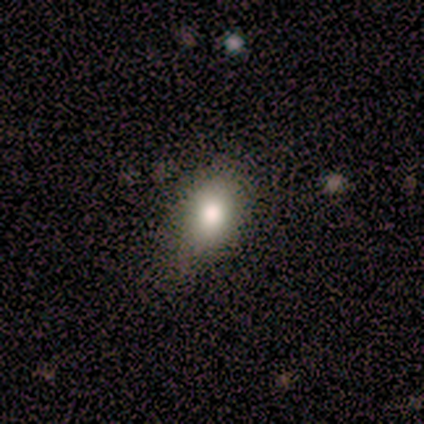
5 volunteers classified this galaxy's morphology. Smooth or featured?
  - smooth: 60% *
  - featured or disk: 20%
  - star or artifact: 20%
How rounded?
  - in between: 100% *
  - round: 0%
  - cigar-shaped: 0%
Merging?
  - none: 75% *
  - minor disturbance: 25%
  - major disturbance: 0%
  - merger: 0%